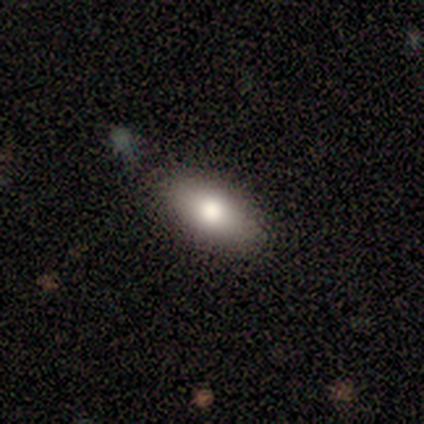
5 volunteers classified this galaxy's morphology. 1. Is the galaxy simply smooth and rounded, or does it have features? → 80% smooth, 20% featured or disk, 0% star or artifact.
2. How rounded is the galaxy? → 100% in between, 0% round, 0% cigar-shaped.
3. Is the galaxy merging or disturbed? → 100% none, 0% minor disturbance, 0% major disturbance, 0% merger.